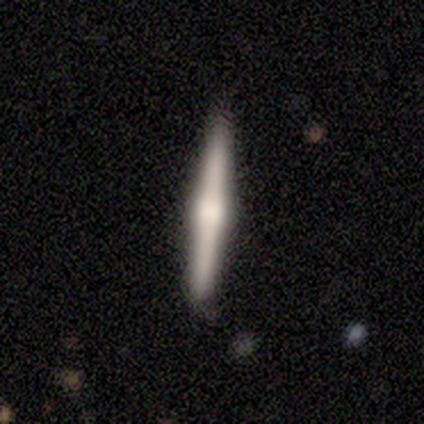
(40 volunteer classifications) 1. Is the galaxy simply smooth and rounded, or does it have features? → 75% featured or disk, 22% smooth, 2% star or artifact.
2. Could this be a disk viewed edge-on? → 100% yes, 0% no.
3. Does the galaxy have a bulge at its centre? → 90% rounded, 10% boxy, 0% none.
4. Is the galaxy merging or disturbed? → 87% none, 10% minor disturbance, 3% major disturbance, 0% merger.